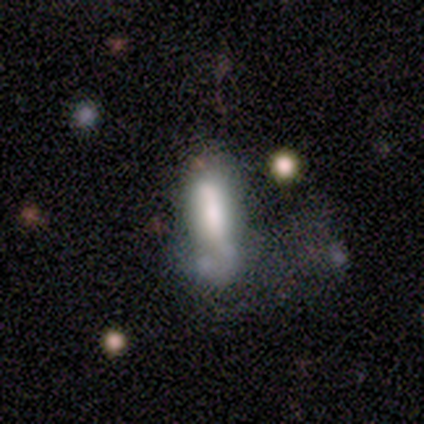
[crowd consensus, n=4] Smooth or featured?
  - smooth: 75% *
  - star or artifact: 25%
  - featured or disk: 0%
How rounded?
  - cigar-shaped: 67% *
  - in between: 33%
  - round: 0%
Merging?
  - none: 33% * (tied)
  - minor disturbance: 33% * (tied)
  - major disturbance: 33% * (tied)
  - merger: 0%